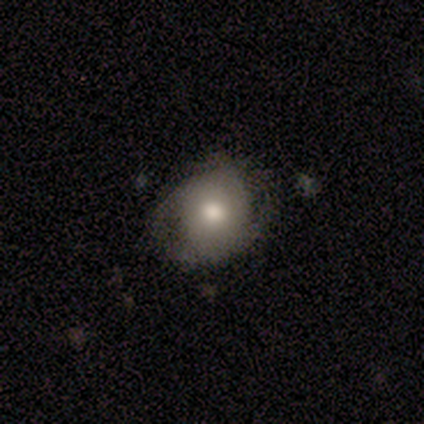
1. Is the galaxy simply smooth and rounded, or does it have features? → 50% smooth (tied), 50% featured or disk (tied), 0% star or artifact.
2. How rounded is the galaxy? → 100% in between, 0% round, 0% cigar-shaped.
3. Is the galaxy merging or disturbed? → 100% none, 0% minor disturbance, 0% major disturbance, 0% merger.